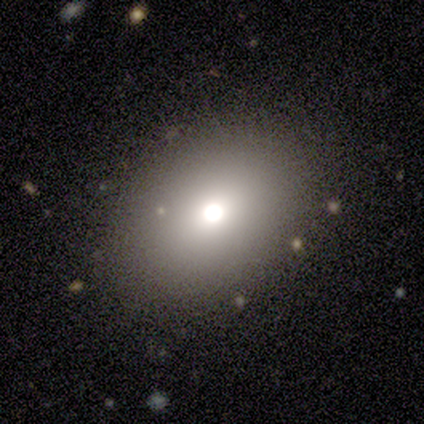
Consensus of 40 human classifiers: A smooth galaxy with no disk features (80%) that is in between round and cigar-shaped (75%).

Vote fractions:
- Smooth or featured? smooth: 80% / featured or disk: 12% / star or artifact: 8%
- How rounded? in between: 75% / round: 22% / cigar-shaped: 3%
- Merging? none: 81% / minor disturbance: 19% / major disturbance: 0% / merger: 0%